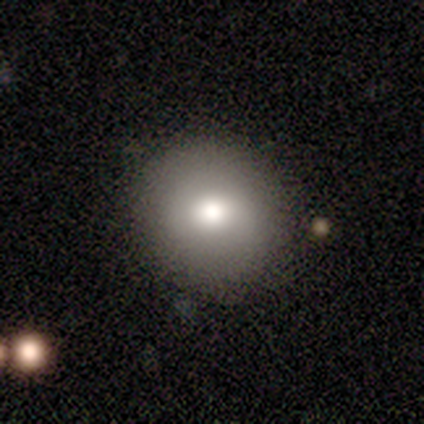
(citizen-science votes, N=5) smooth-or-featured: smooth: 100% | featured or disk: 0% | star or artifact: 0%
  how-rounded: round: 100% | in between: 0% | cigar-shaped: 0%
  merging: none: 100% | minor disturbance: 0% | major disturbance: 0% | merger: 0%